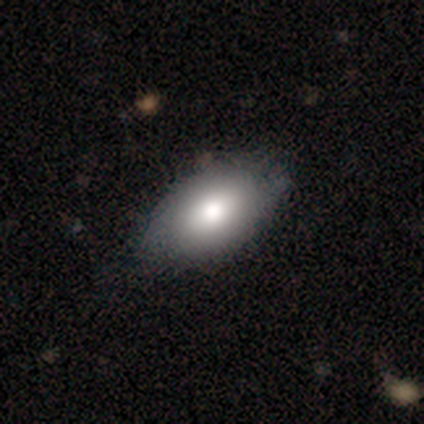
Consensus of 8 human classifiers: A smooth galaxy with no disk features (88%) that is in between round and cigar-shaped (100%). Merging: none (62%).